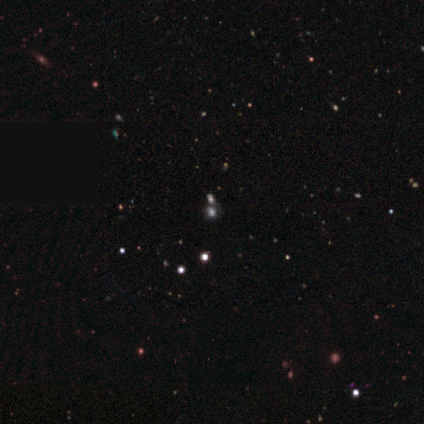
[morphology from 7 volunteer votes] Volunteers were most divided on "smooth or featured": star or artifact: 86%, smooth: 14%, featured or disk: 0%.